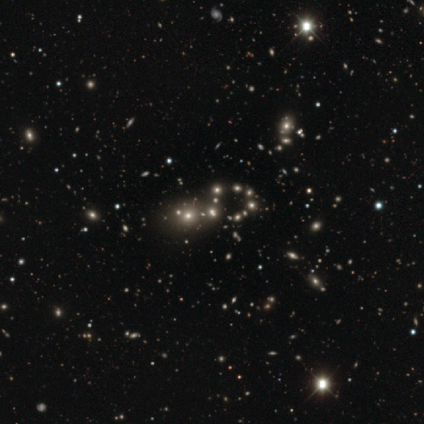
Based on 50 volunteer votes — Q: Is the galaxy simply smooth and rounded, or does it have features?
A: star or artifact — 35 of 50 (70%).